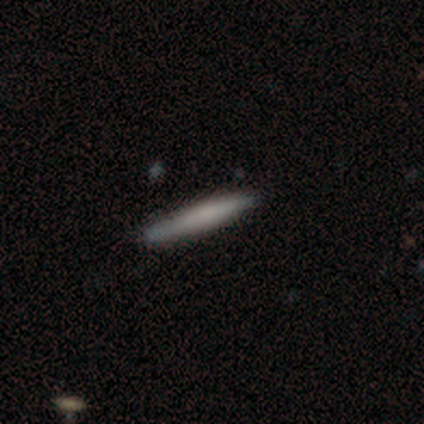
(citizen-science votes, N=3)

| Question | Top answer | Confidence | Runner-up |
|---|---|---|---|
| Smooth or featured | smooth | 100% | — |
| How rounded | cigar-shaped | 100% | — |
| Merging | none | 100% | — |